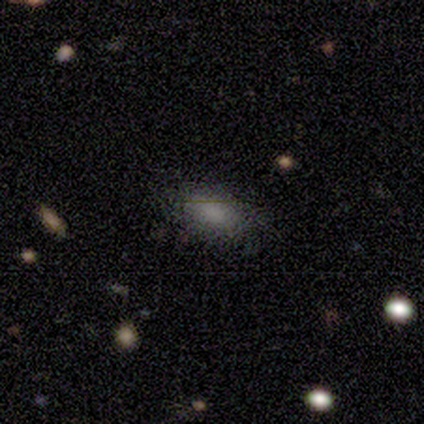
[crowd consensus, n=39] smooth-or-featured: smooth: 82% | featured or disk: 10% | star or artifact: 8%
  how-rounded: in between: 94% | round: 6% | cigar-shaped: 0%
  merging: none: 86% | minor disturbance: 8% | major disturbance: 6% | merger: 0%